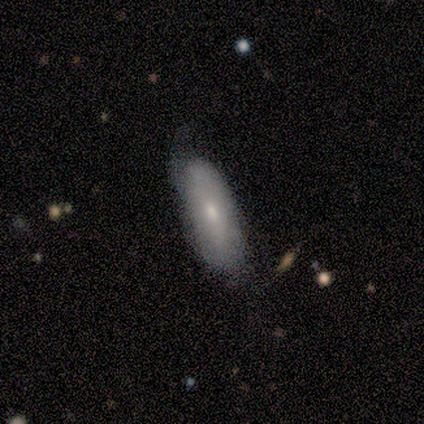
smooth_or_featured: smooth (p=0.80) [alt: featured or disk p=0.20]
how_rounded: in between (p=0.75) [alt: cigar-shaped p=0.25]
merging: none (p=0.40) [tied with: minor disturbance p=0.40]